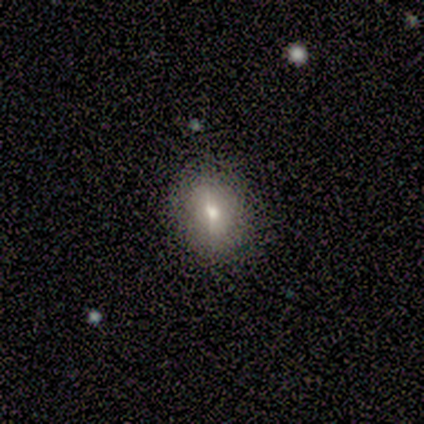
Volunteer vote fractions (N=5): This appears to be a smooth galaxy with no disk features (80%) that is round (75%). Merging: none (75%).